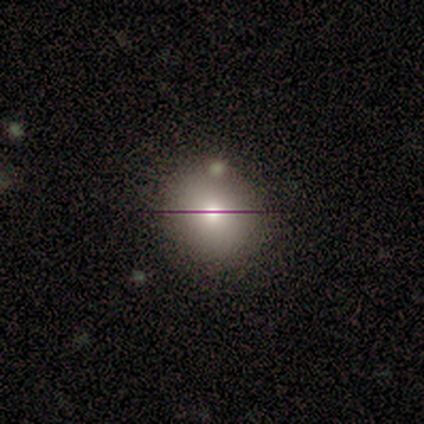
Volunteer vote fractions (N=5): Overall: smooth (60%; featured or disk 20%). How rounded: round (100%). Merging: none (75%).